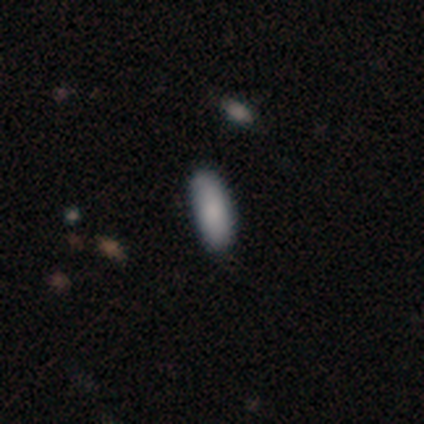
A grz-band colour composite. It shows a smooth galaxy with no disk features (100%) that is in between round and cigar-shaped (60%). Merging: none (60%).